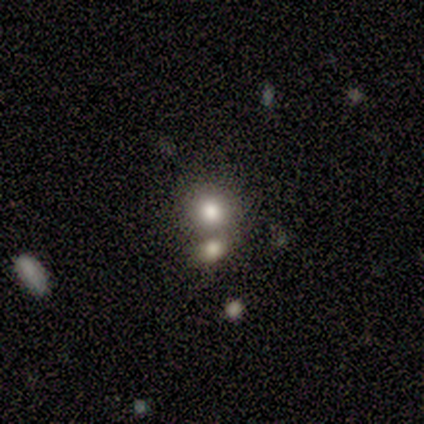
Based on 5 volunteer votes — smooth-or-featured: smooth: 60% | featured or disk: 20% | star or artifact: 20%
  how-rounded: round: 100% | in between: 0% | cigar-shaped: 0%
  merging: none: 50% | minor disturbance: 25% | merger: 25% | major disturbance: 0%